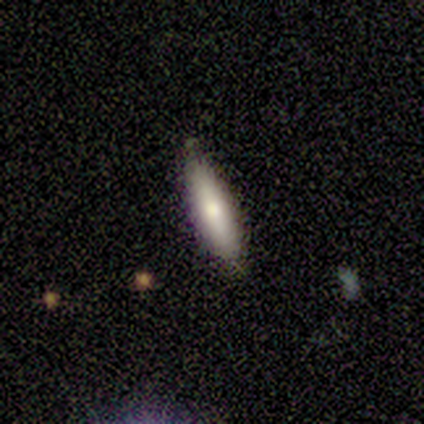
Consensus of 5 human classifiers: This is clearly a smooth galaxy (80%). How rounded: clearly cigar-shaped (100%). Merging: marginally none (40%, tied with minor disturbance).